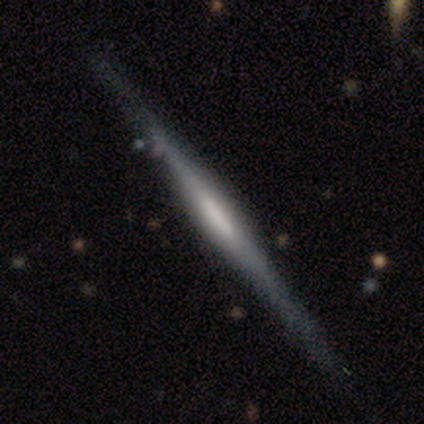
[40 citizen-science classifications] Volunteers were most divided on "edge-on bulge": boxy: 45%, rounded: 29%, none: 26%. More confident: edge-on disk — yes (100%); merging — none (82%); smooth or featured — featured or disk (78%).